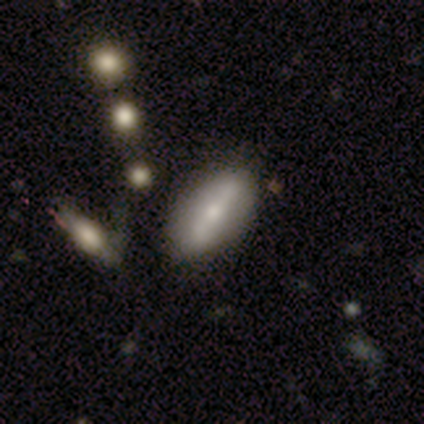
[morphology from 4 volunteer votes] smooth_or_featured: featured or disk (p=0.75) [alt: smooth p=0.25]
disk_edge_on: no (p=1.00)
bar: strong (p=0.67) [alt: no p=0.33]
has_spiral_arms: no (p=0.67) [alt: yes p=0.33]
bulge_size: large (p=0.33) [tied with: moderate p=0.33, small p=0.33]
merging: none (p=0.75) [alt: minor disturbance p=0.25]